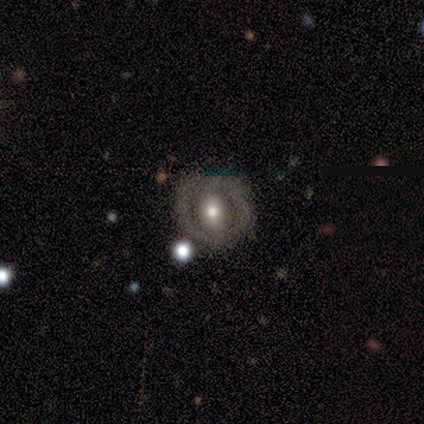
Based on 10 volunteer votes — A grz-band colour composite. It shows a featured or disk galaxy (60%) with no bar (50%), no spiral arms (83%) and a moderate central bulge (100%). Merging: none (50%).